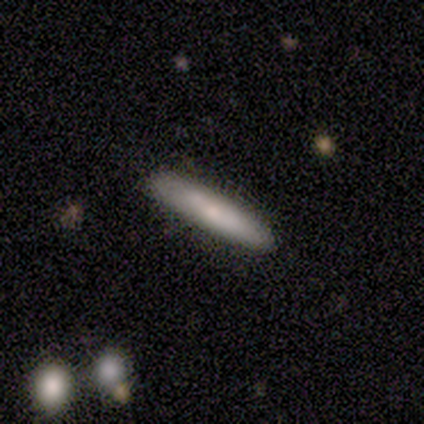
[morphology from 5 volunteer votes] smooth-or-featured: smooth: 40% (tied) | star or artifact: 40% (tied) | featured or disk: 20%
  how-rounded: cigar-shaped: 100% | round: 0% | in between: 0%
  merging: none: 100% | minor disturbance: 0% | major disturbance: 0% | merger: 0%